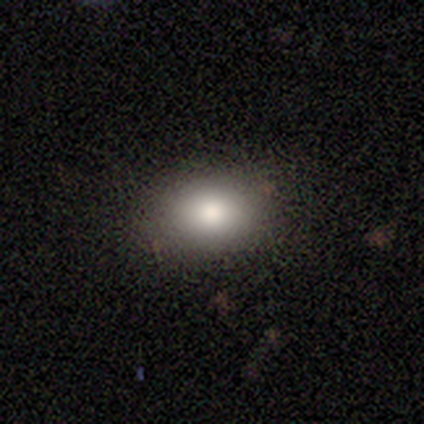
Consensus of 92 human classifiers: Overall: smooth (84%). How rounded: in between (66%; round 32%). Merging: none (89%).